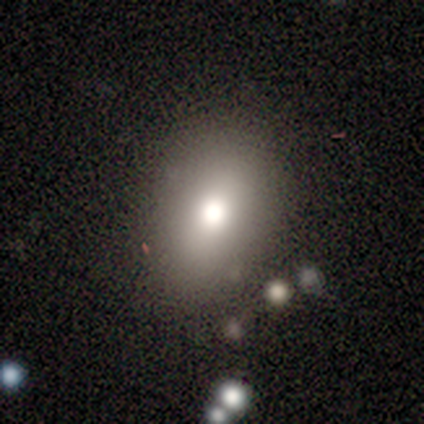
Q: Smooth or featured?
A: smooth (72%); runner-up: star or artifact (15%)
Q: How rounded?
A: in between (72%); runner-up: round (24%)
Q: Merging?
A: none (85%); runner-up: major disturbance (6%)